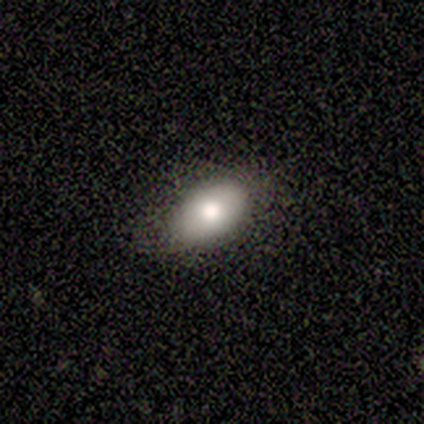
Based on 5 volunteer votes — Smooth or featured: smooth — 40% (tied with featured or disk — 40%)
How rounded: in between — 100%
Merging: none — 75% (major disturbance — 25%)